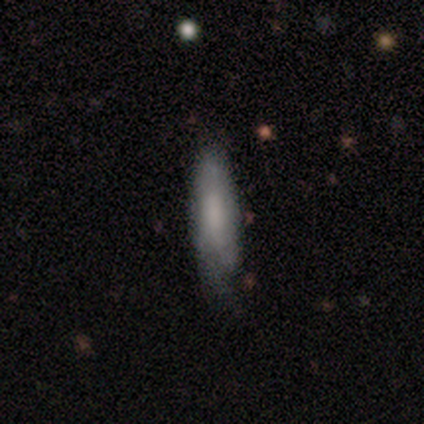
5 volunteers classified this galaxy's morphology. This is likely a featured or disk galaxy (60%). It is likely not viewed edge-on (67%). Bar: possibly weak (50%, tied with no). Spiral arm pattern: clearly yes (100%). Spiral arm count: clearly can't tell (100%). Spiral winding: clearly tight (100%). Central bulge: possibly moderate (50%, tied with none). Merging: clearly none (80%).